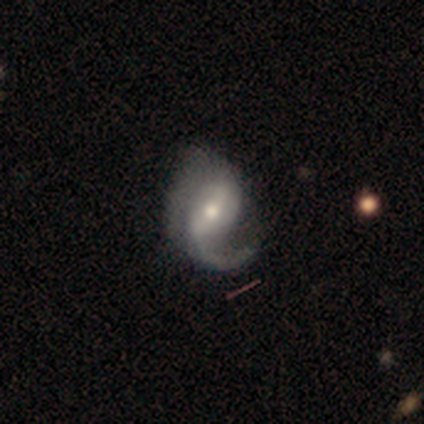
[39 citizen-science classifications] Overall: featured or disk (90%). Edge-on disk: no (97%). Bar: weak (53%; strong 26%). Spiral arms: yes (100%). Spiral arm count: 1 (56%; 2 41%). Spiral winding: medium (59%; loose 41%). Bulge size: moderate (62%; small 24%). Merging: none (43%; minor disturbance 30%).